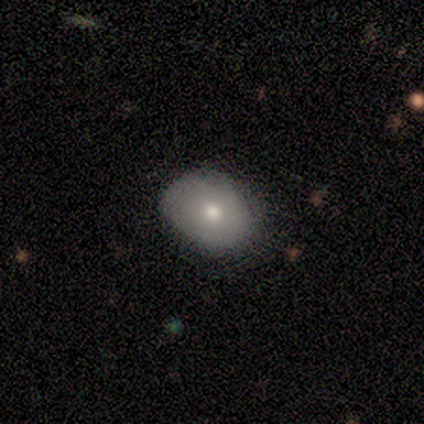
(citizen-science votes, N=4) Smooth or featured? 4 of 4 (100%) said smooth. How rounded? 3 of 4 (75%) said round. Merging? 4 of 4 (100%) said none.